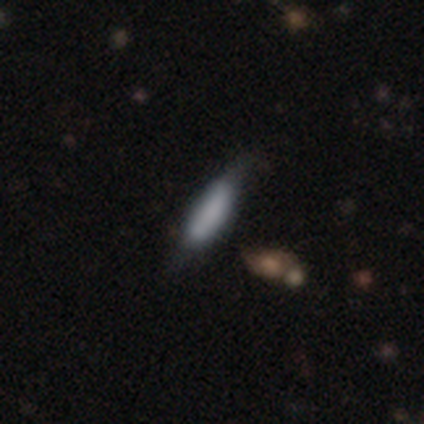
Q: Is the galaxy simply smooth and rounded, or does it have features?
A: featured or disk — 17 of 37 (46%).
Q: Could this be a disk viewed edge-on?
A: yes — 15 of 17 (88%).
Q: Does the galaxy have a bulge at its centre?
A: boxy — 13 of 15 (87%).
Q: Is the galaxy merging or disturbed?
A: none — 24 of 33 (73%).